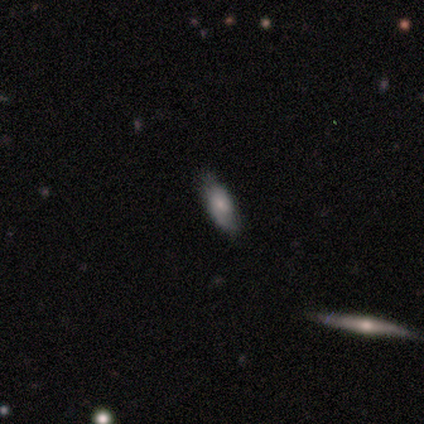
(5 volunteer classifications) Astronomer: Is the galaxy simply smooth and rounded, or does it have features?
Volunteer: smooth — 60% (runner-up: featured or disk, 40%).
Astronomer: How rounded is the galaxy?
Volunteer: in between — 100%.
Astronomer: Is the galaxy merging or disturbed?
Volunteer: none — 80%.